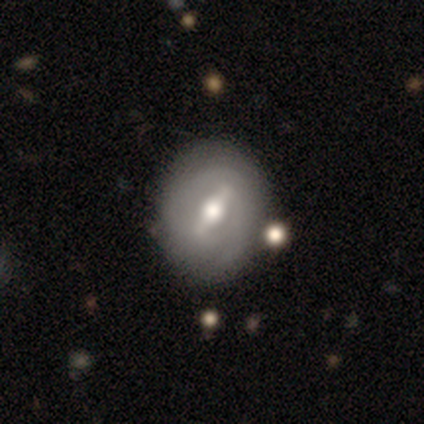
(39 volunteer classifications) A featured or disk galaxy (87%) with a strong bar (75%), 2 (53%) tight (47%) spiral arms (59%) and a moderate central bulge (75%). Merging: none (62%).